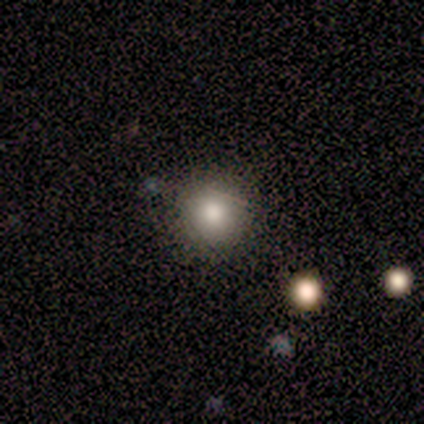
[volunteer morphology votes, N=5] Smooth or featured?
  - smooth: 100% *
  - featured or disk: 0%
  - star or artifact: 0%
How rounded?
  - round: 100% *
  - in between: 0%
  - cigar-shaped: 0%
Merging?
  - none: 60% *
  - minor disturbance: 20%
  - major disturbance: 20%
  - merger: 0%